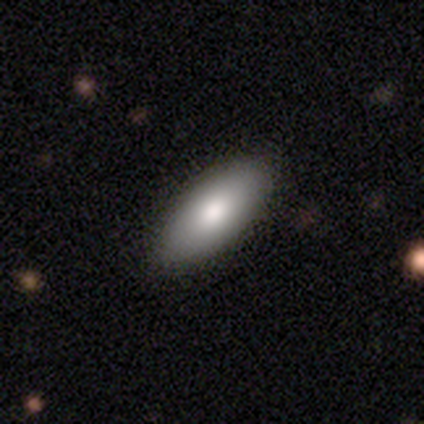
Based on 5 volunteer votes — Smooth or featured?
  - smooth: 100% *
  - featured or disk: 0%
  - star or artifact: 0%
How rounded?
  - in between: 60% *
  - cigar-shaped: 40%
  - round: 0%
Merging?
  - none: 80% *
  - minor disturbance: 20%
  - major disturbance: 0%
  - merger: 0%